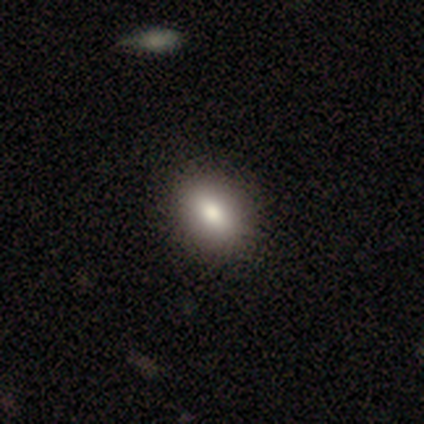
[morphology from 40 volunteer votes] Smooth or featured? 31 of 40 (78%) said smooth. How rounded? 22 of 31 (71%) said in between. Merging? 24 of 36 (67%) said none.